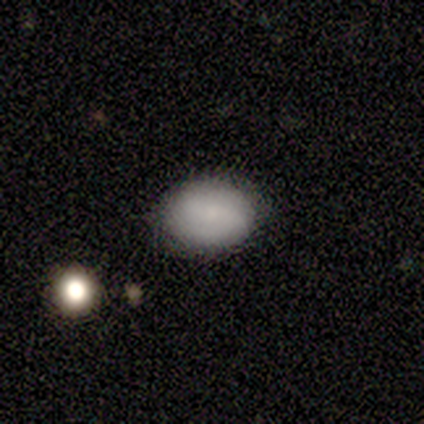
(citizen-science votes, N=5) smooth-or-featured: smooth: 80% | featured or disk: 20% | star or artifact: 0%
  how-rounded: in between: 100% | round: 0% | cigar-shaped: 0%
  merging: none: 80% | minor disturbance: 20% | major disturbance: 0% | merger: 0%